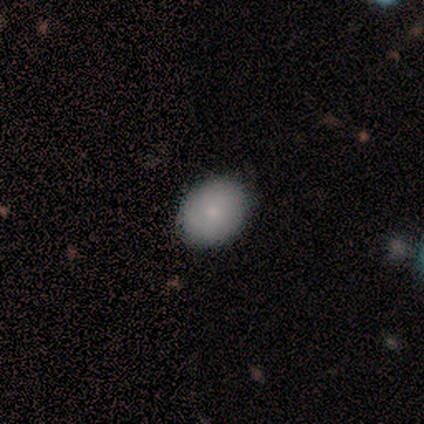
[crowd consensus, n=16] This is clearly a smooth galaxy (81%). How rounded: possibly round (54%). Merging: clearly none (93%).